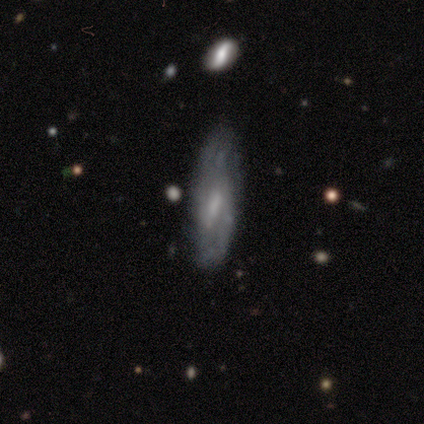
This is likely a featured or disk galaxy (75%). It is clearly not viewed edge-on (100%). Bar: likely weak (67%). Spiral arm pattern: likely yes (67%). Spiral arm count: possibly 1 (50%, tied with 2). Spiral winding: possibly tight (50%, tied with medium). Central bulge: likely moderate (67%). Merging: possibly none (50%, tied with minor disturbance).